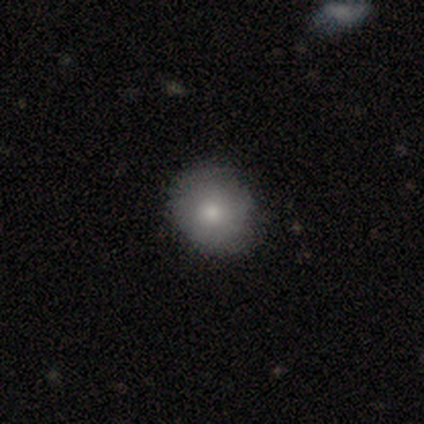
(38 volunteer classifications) Smooth or featured?
  - smooth: 89% *
  - featured or disk: 11%
  - star or artifact: 0%
How rounded?
  - round: 85% *
  - in between: 12%
  - cigar-shaped: 3%
Merging?
  - none: 61% *
  - minor disturbance: 11%
  - major disturbance: 3%
  - merger: 3%